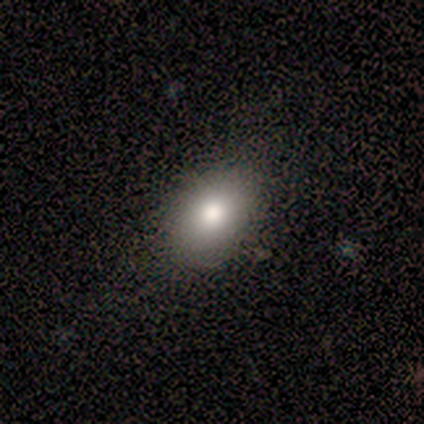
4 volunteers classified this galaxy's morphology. Q: Smooth or featured?
A: smooth (75%); runner-up: featured or disk (25%)
Q: How rounded?
A: in between (67%); runner-up: round (33%)
Q: Merging?
A: none (75%); runner-up: minor disturbance (25%)